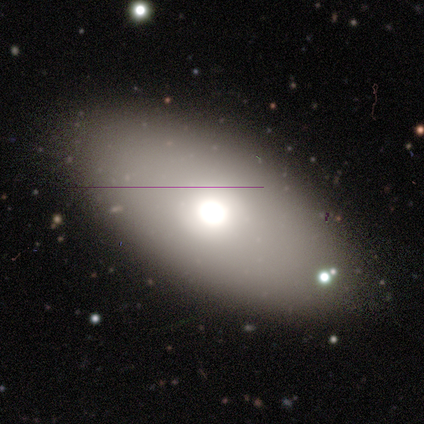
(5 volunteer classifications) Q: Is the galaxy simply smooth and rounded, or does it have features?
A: smooth — 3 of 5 (60%).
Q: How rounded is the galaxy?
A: in between — 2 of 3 (67%).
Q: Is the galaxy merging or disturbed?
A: none — 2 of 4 (50%, tied with minor disturbance).